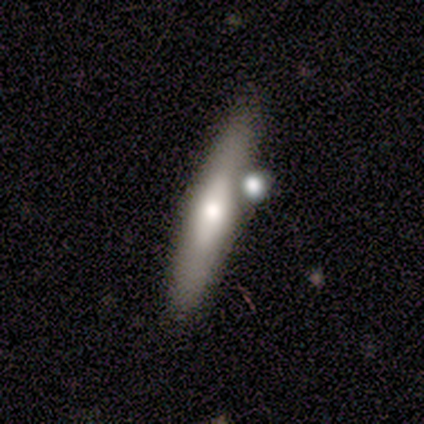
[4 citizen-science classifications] Q: Smooth or featured?
A: featured or disk (75%); runner-up: smooth (25%)
Q: Edge-on disk?
A: yes (67%); runner-up: no (33%)
Q: Edge-on bulge?
A: none (50%); tied with: rounded (50%)
Q: Merging?
A: merger (50%); runner-up: none (25%)